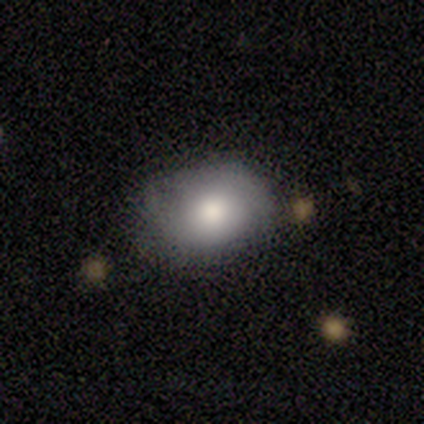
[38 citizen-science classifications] Morphology: type=smooth (58%); roundness=in between (59%); merging=none (68%).